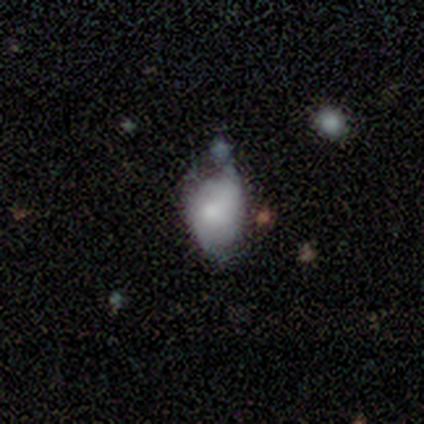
Morphology: type=smooth (76%); roundness=in between (72%); merging=minor disturbance (42%).